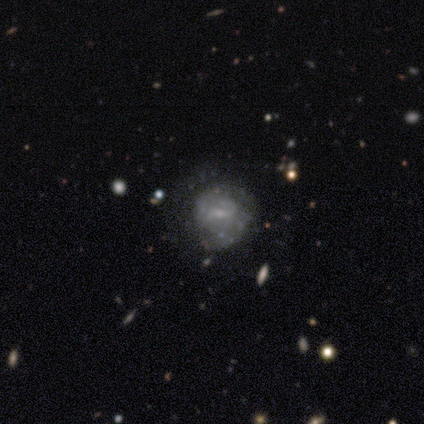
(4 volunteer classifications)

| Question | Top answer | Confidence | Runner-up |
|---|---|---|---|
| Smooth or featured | featured or disk | 75% | star or artifact (25%) |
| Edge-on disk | no | 100% | — |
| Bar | weak | 100% | — |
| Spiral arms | yes | 67% | no (33%) |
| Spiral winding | tight | 50% | tied: medium (50%) |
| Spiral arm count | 2 | 50% | tied: 4 (50%) |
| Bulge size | moderate | 67% | small (33%) |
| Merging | none | 33% | tied: minor disturbance (33%), merger (33%) |